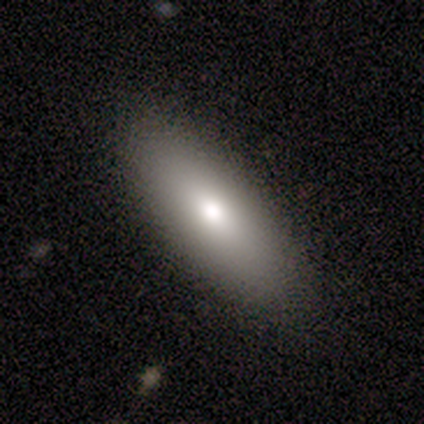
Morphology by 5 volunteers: Smooth or featured?
  - smooth: 80% *
  - featured or disk: 20%
  - star or artifact: 0%
How rounded?
  - in between: 100% *
  - round: 0%
  - cigar-shaped: 0%
Merging?
  - none: 60% *
  - minor disturbance: 40%
  - major disturbance: 0%
  - merger: 0%